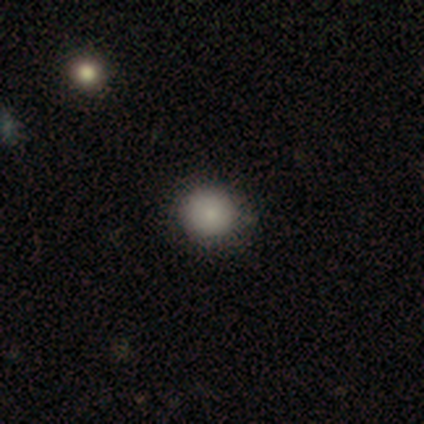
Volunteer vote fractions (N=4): Overall: smooth (100%). How rounded: round (100%). Merging: none (75%).